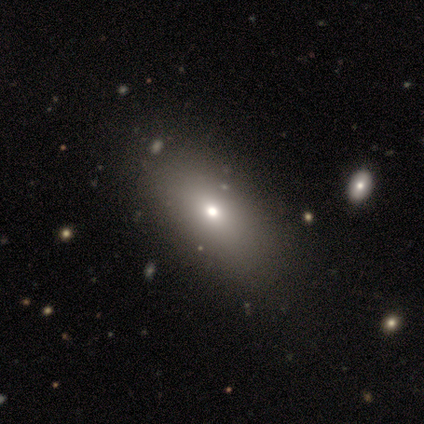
smooth-or-featured: smooth: 60% | featured or disk: 40% | star or artifact: 0%
  how-rounded: in between: 67% | cigar-shaped: 33% | round: 0%
  merging: none: 100% | minor disturbance: 0% | major disturbance: 0% | merger: 0%